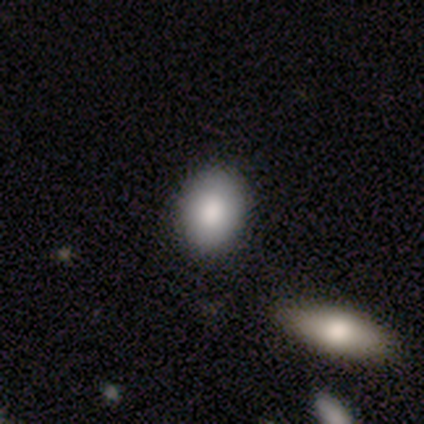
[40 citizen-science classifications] Smooth or featured: smooth — 82% (featured or disk — 12%)
How rounded: in between — 73% (round — 27%)
Merging: none — 71% (minor disturbance — 5%)